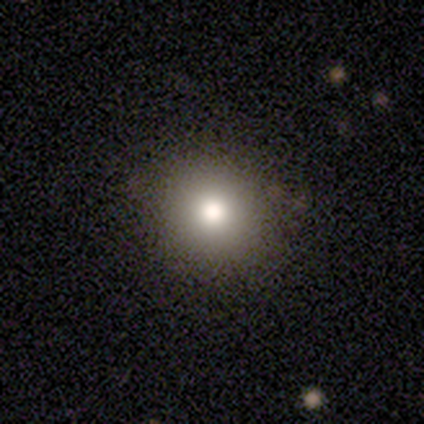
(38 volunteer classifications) Smooth or featured? smooth (71%)
How rounded? round (93%)
Merging? none (87%)